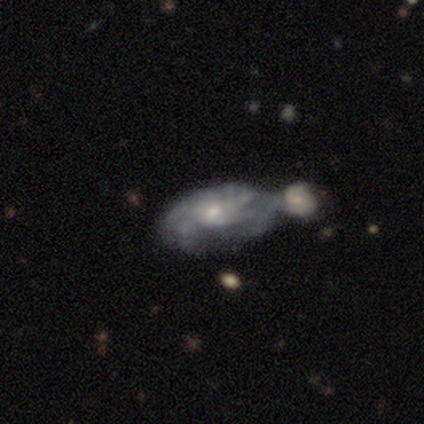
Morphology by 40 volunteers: This is clearly a featured or disk galaxy (88%). It is clearly not viewed edge-on (97%). Bar: clearly no (82%). Spiral arm pattern: likely yes (68%). Spiral arm count: marginally can't tell (43%). Spiral winding: marginally tight (43%). Central bulge: possibly small (56%). Merging: likely merger (69%).